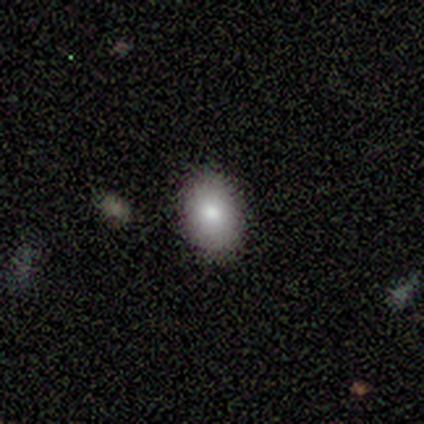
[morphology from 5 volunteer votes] smooth-or-featured: smooth: 100% | featured or disk: 0% | star or artifact: 0%
  how-rounded: in between: 100% | round: 0% | cigar-shaped: 0%
  merging: none: 100% | minor disturbance: 0% | major disturbance: 0% | merger: 0%